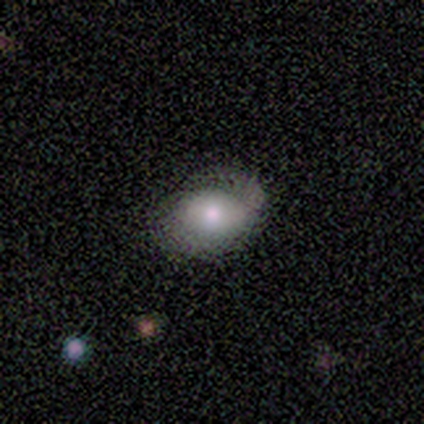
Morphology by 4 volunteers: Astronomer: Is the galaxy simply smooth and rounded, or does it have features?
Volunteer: smooth — 50%, tied with featured or disk at 50%.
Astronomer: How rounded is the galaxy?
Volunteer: round — 100%.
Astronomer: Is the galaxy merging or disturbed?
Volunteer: none — 50%.